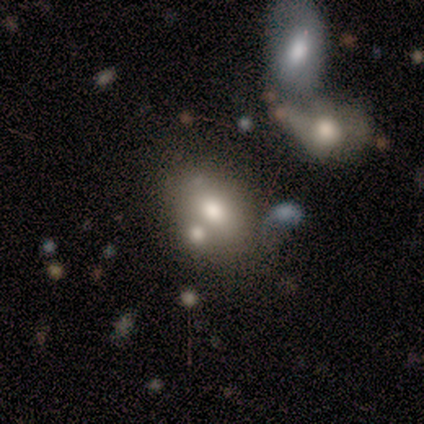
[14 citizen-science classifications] smooth-or-featured: smooth: 64% | featured or disk: 36% | star or artifact: 0%
  how-rounded: in between: 78% | round: 22% | cigar-shaped: 0%
  merging: merger: 57% | none: 21% | minor disturbance: 21% | major disturbance: 0%